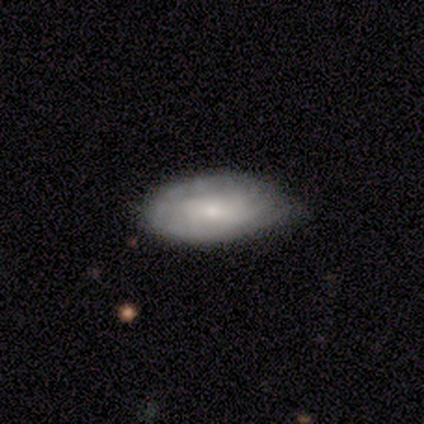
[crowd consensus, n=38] Q: Smooth or featured?
A: smooth (47%); runner-up: featured or disk (42%)
Q: How rounded?
A: in between (94%); runner-up: cigar-shaped (6%)
Q: Merging?
A: none (68%); runner-up: minor disturbance (32%)